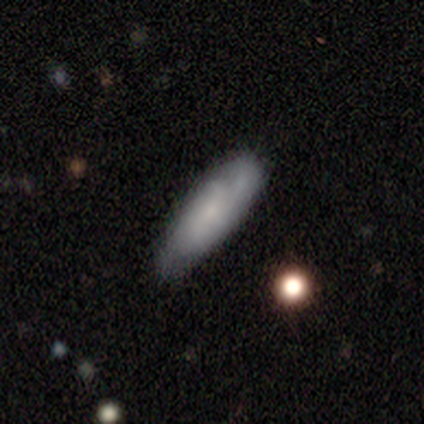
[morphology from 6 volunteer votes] Q: Smooth or featured?
A: smooth (50%); tied with: featured or disk (50%)
Q: How rounded?
A: cigar-shaped (100%)
Q: Merging?
A: none (100%)